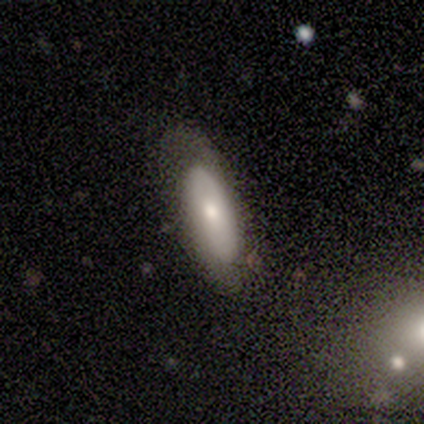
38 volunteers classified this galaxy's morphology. Smooth or featured: smooth — 66% (featured or disk — 26%)
How rounded: in between — 72% (cigar-shaped — 28%)
Merging: none — 51% (minor disturbance — 26%)